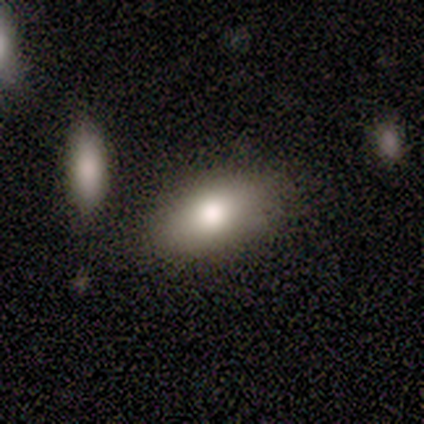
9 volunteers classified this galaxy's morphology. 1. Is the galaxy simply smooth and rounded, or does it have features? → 89% smooth, 11% featured or disk, 0% star or artifact.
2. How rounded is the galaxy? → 88% in between, 12% cigar-shaped, 0% round.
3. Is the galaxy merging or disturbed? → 67% none, 22% merger, 11% minor disturbance, 0% major disturbance.